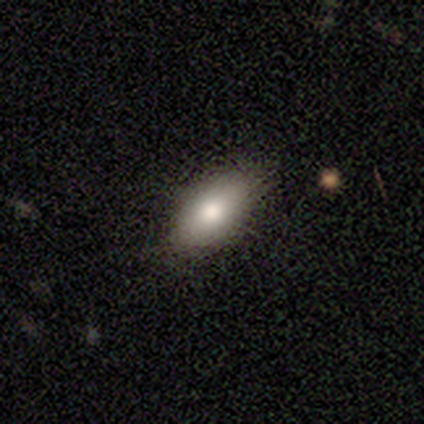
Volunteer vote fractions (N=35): Smooth or featured?
  - smooth: 77% *
  - featured or disk: 17%
  - star or artifact: 6%
How rounded?
  - in between: 93% *
  - round: 4%
  - cigar-shaped: 4%
Merging?
  - none: 94% *
  - minor disturbance: 6%
  - major disturbance: 0%
  - merger: 0%